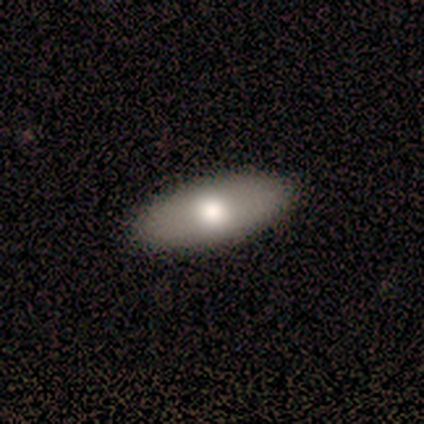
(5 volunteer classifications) This appears to be a smooth galaxy with no disk features (60%) that is in between round and cigar-shaped (100%). Merging: none (100%).